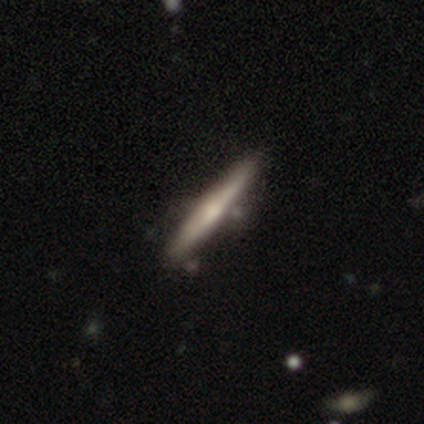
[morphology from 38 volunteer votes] Smooth or featured?
  - featured or disk: 61% *
  - smooth: 37%
  - star or artifact: 3%
Edge-on disk?
  - yes: 96% *
  - no: 4%
Edge-on bulge?
  - rounded: 55% *
  - none: 41%
  - boxy: 5%
Merging?
  - none: 54% *
  - minor disturbance: 22%
  - merger: 11%
  - major disturbance: 0%